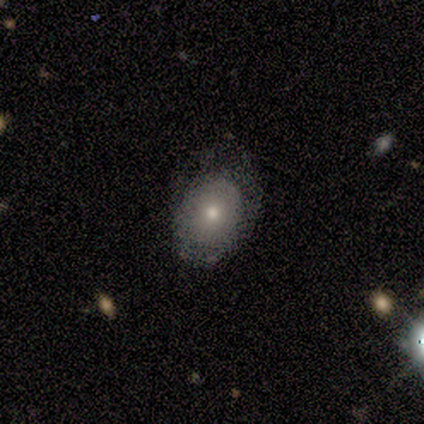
This appears to be a smooth galaxy with no disk features (80%) that is in between round and cigar-shaped (75%). Merging: minor disturbance (80%).